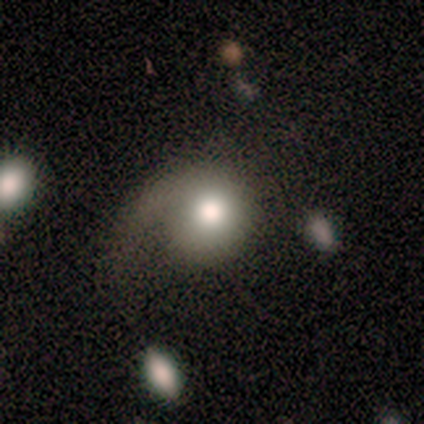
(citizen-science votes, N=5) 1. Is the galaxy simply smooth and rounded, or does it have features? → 60% featured or disk, 40% smooth, 0% star or artifact.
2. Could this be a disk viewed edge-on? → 100% no, 0% yes.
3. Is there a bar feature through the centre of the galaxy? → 67% no, 33% weak, 0% strong.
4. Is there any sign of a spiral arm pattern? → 67% yes, 33% no.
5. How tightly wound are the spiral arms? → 50% medium (tied), 50% loose (tied), 0% tight.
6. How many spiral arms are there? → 100% 1, 0% 2, 0% 3, 0% 4, 0% more than 4, 0% can't tell.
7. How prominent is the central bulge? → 67% moderate, 33% large, 0% dominant, 0% small, 0% none.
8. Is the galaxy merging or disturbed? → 60% major disturbance, 20% none, 20% minor disturbance, 0% merger.